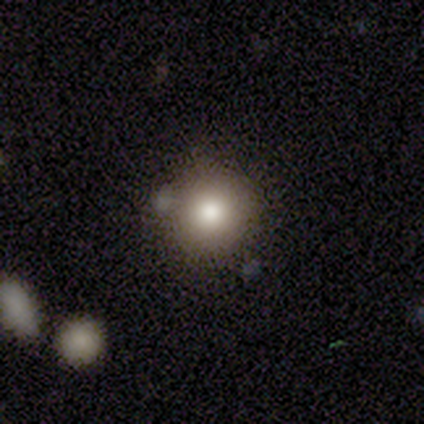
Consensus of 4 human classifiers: smooth-or-featured: smooth: 100% | featured or disk: 0% | star or artifact: 0%
  how-rounded: round: 100% | in between: 0% | cigar-shaped: 0%
  merging: none: 50% (tied) | minor disturbance: 50% (tied) | major disturbance: 0% | merger: 0%